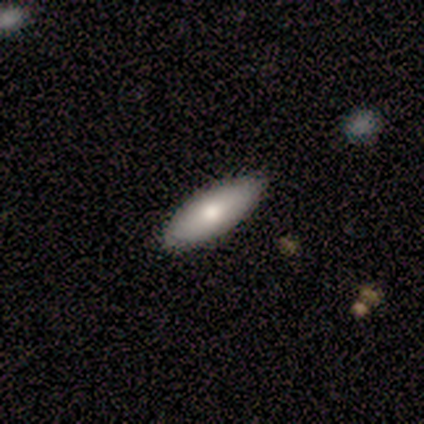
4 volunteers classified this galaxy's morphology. A smooth galaxy with no disk features (100%) that is in between round and cigar-shaped (75%).

Vote fractions:
- Smooth or featured? smooth: 100% / featured or disk: 0% / star or artifact: 0%
- How rounded? in between: 75% / cigar-shaped: 25% / round: 0%
- Merging? none: 75% / minor disturbance: 25% / major disturbance: 0% / merger: 0%